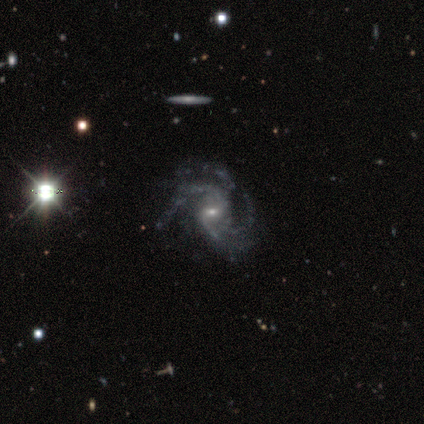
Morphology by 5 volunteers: Volunteers were most divided on "bar": weak: 60%, no: 40%, strong: 0%. Remaining: smooth or featured — featured or disk (100%); edge-on disk — no (100%); spiral arms — yes (100%); bulge size — small (80%); merging — none (80%); spiral winding — medium (60%); spiral arm count — 4 (40%).